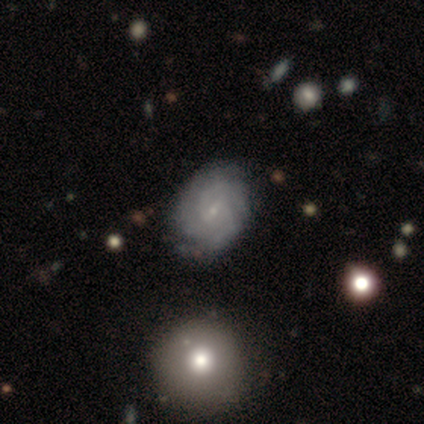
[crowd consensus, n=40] featured or disk 70%, smooth 22%, star or artifact 8%. Down the decision tree: edge-on disk — no (93%); bar — weak (58%); spiral arms — yes (92%); spiral arm count — 3 (42%); spiral winding — tight (67%); bulge size — small (85%); merging — none (57%).